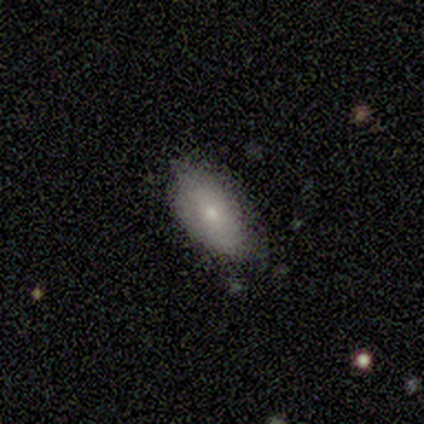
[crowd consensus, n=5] Morphology: type=smooth (40%, tied with featured or disk); roundness=in between (100%); merging=none (50%, tied with minor disturbance).